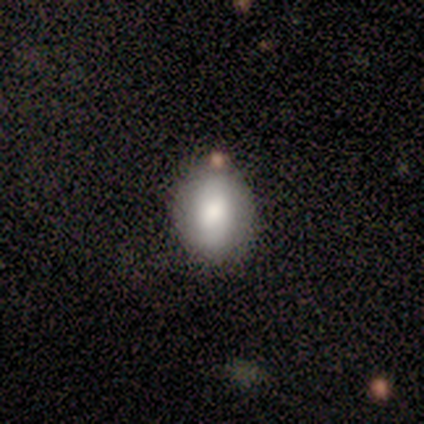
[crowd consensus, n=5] smooth 80%, featured or disk 20%, star or artifact 0%. Down the decision tree: how rounded — round (75%); merging — none (100%).